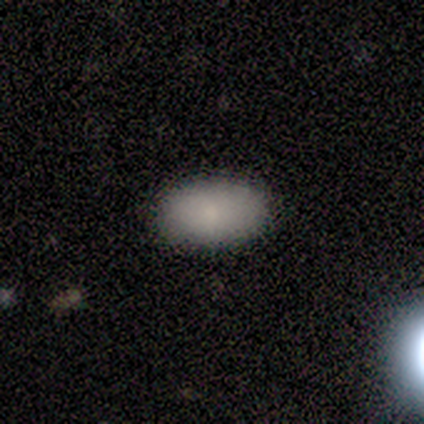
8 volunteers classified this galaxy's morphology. smooth 75%, featured or disk 12%, star or artifact 12%. Down the decision tree: how rounded — in between (100%); merging — none (100%).